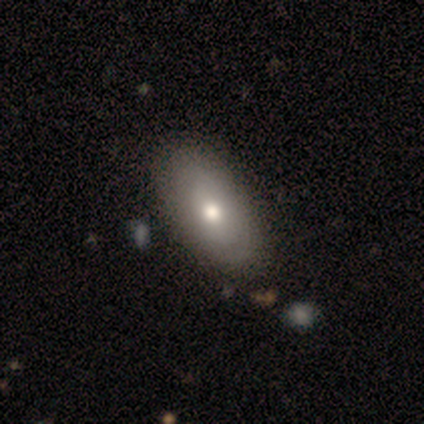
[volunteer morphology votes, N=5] This is clearly a smooth galaxy (80%). How rounded: clearly in between (100%). Merging: likely none (60%).